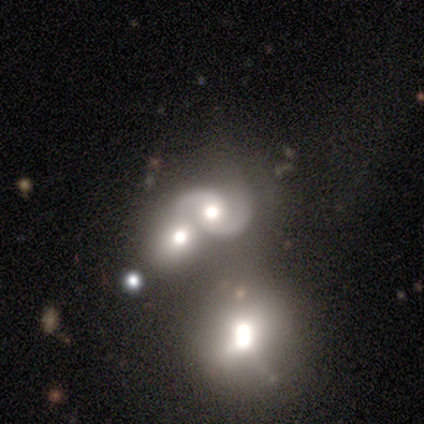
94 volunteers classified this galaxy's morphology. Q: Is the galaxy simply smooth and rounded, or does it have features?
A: featured or disk — 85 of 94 (90%).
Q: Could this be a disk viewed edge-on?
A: no — 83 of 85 (98%).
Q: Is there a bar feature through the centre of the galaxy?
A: no — 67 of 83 (81%).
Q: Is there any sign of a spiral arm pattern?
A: yes — 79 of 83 (95%).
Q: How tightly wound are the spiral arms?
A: medium — 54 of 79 (68%).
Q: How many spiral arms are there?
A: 2 — 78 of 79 (99%).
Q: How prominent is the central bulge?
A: moderate — 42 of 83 (51%).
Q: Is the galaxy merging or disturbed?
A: merger — 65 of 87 (75%).